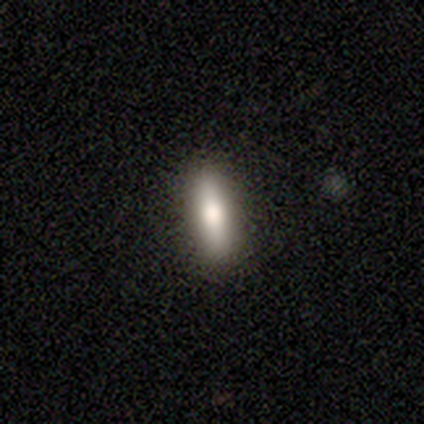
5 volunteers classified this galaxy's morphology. Q: Smooth or featured?
A: smooth (80%); runner-up: featured or disk (20%)
Q: How rounded?
A: cigar-shaped (100%)
Q: Merging?
A: none (100%)